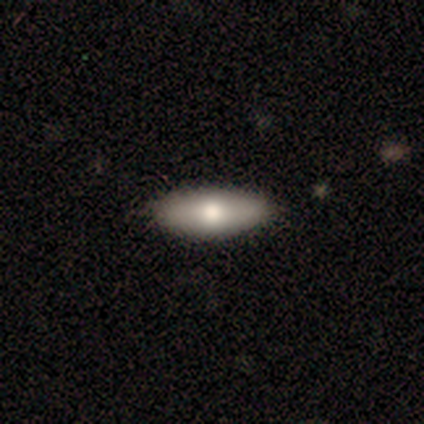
This appears to be a smooth galaxy with no disk features (60%) that is in between round and cigar-shaped (67%). Merging: none (80%).